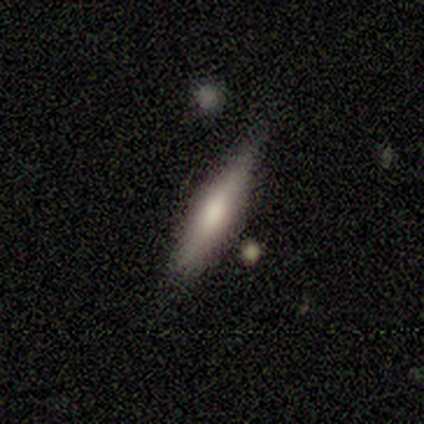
Smooth or featured? 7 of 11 (64%) said smooth. How rounded? 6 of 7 (86%) said cigar-shaped. Merging? 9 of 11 (82%) said none.